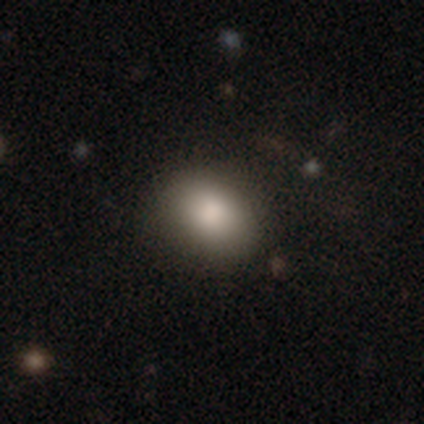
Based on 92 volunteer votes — smooth 84%, star or artifact 10%, featured or disk 7%. Down the decision tree: how rounded — in between (69%); merging — none (81%).